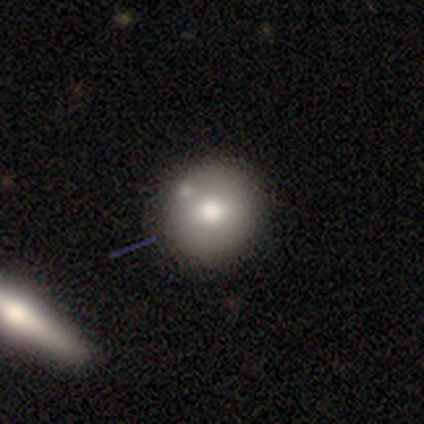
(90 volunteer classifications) This is likely a smooth galaxy (69%). How rounded: clearly round (92%). Merging: likely none (68%).